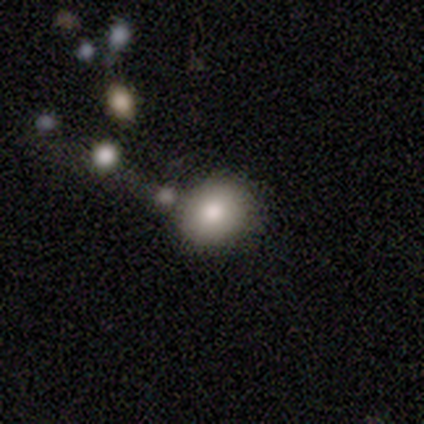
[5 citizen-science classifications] smooth-or-featured: smooth: 80% | star or artifact: 20% | featured or disk: 0%
  how-rounded: round: 75% | in between: 25% | cigar-shaped: 0%
  merging: none: 100% | minor disturbance: 0% | major disturbance: 0% | merger: 0%